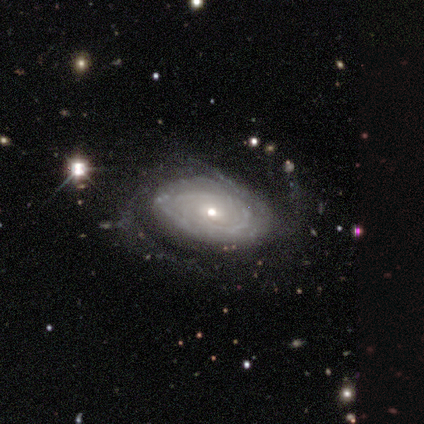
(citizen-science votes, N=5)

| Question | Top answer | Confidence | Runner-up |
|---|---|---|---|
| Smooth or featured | featured or disk | 100% | — |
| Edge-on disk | no | 100% | — |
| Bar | weak | 40% | tied: no (40%) |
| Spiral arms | yes | 100% | — |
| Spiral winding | tight | 60% | medium (40%) |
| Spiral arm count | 2 | 60% | more than 4 (20%) |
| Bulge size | moderate | 40% | tied: small (40%) |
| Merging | none | 60% | minor disturbance (40%) |